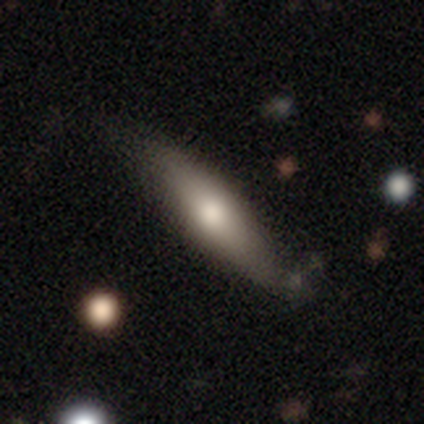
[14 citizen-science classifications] A smooth galaxy with no disk features (50%, tied with featured or disk) that is in between round and cigar-shaped (57%). Merging: none (71%).